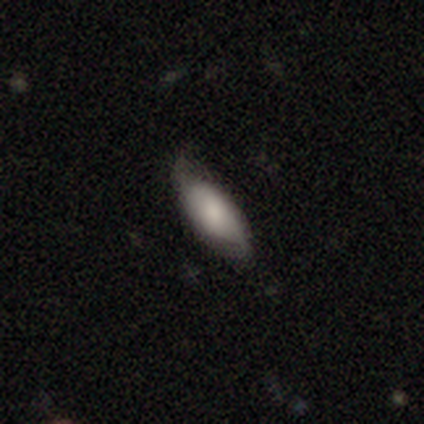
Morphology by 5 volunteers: Smooth or featured: smooth — 100%
How rounded: in between — 40% (tied with cigar-shaped — 40%)
Merging: none — 80% (minor disturbance — 20%)